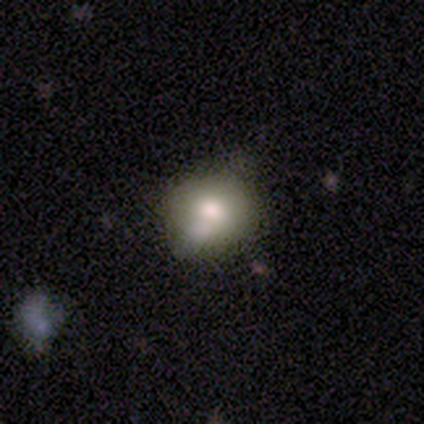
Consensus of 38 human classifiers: Overall: smooth (79%). How rounded: round (67%; in between 33%). Merging: none (47%; minor disturbance 44%).